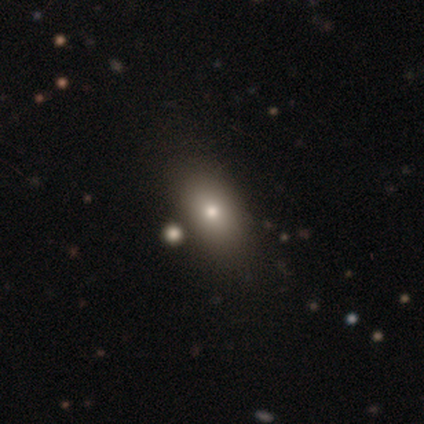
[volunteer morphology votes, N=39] Q: Smooth or featured?
A: smooth (69%); runner-up: featured or disk (18%)
Q: How rounded?
A: in between (89%); runner-up: round (7%)
Q: Merging?
A: none (71%); runner-up: merger (15%)